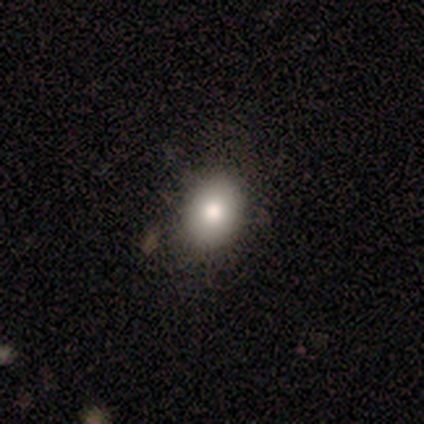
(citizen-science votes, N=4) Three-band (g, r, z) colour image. It shows a smooth galaxy with no disk features (75%) that is round (67%). Merging: none (100%).